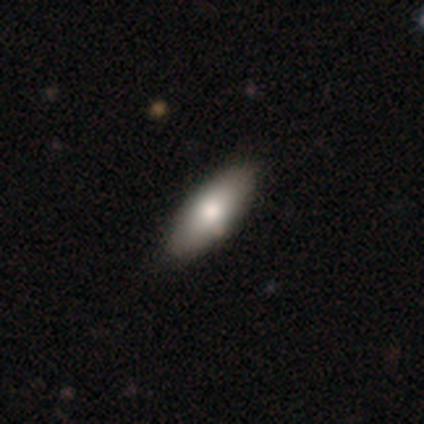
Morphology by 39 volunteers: Smooth or featured? smooth (72%)
How rounded? in between (89%)
Merging? none (62%)